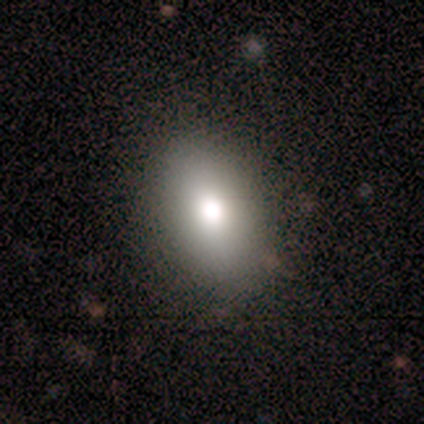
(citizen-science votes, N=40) Volunteers were most divided on "how rounded": in between: 76%, round: 24%, cigar-shaped: 0%. More confident: merging — none (89%); smooth or featured — smooth (82%).